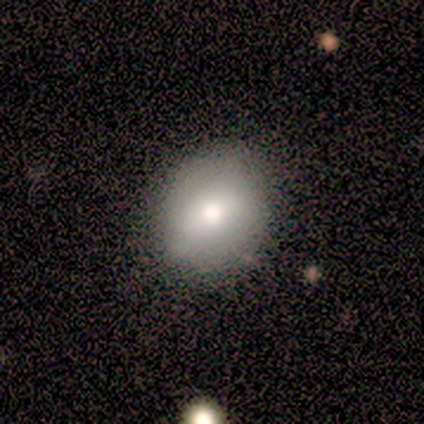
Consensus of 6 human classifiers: A smooth galaxy with no disk features (83%) that is round (60%).

Vote fractions:
- Smooth or featured? smooth: 83% / star or artifact: 17% / featured or disk: 0%
- How rounded? round: 60% / in between: 40% / cigar-shaped: 0%
- Merging? none: 80% / major disturbance: 20% / minor disturbance: 0% / merger: 0%